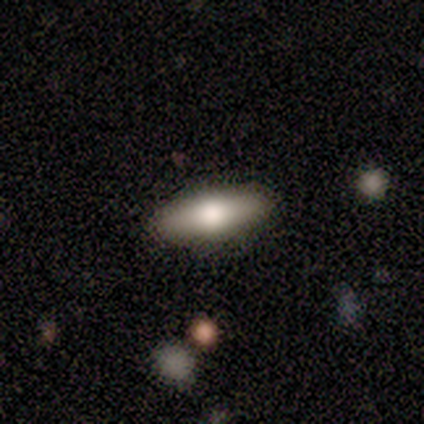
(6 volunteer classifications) Morphology: type=smooth (67%); roundness=in between (75%); merging=none (100%).